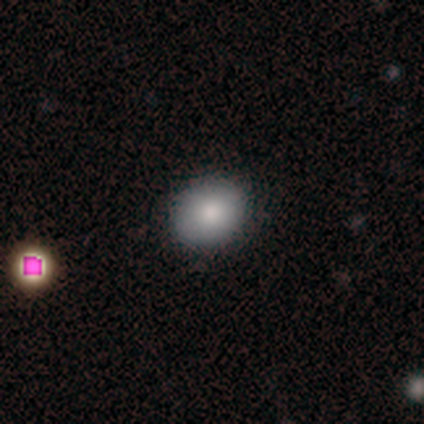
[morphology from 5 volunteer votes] Smooth or featured? 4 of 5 (80%) said smooth. How rounded? 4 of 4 (100%) said in between. Merging? 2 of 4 (50%, tied with minor disturbance) said none.